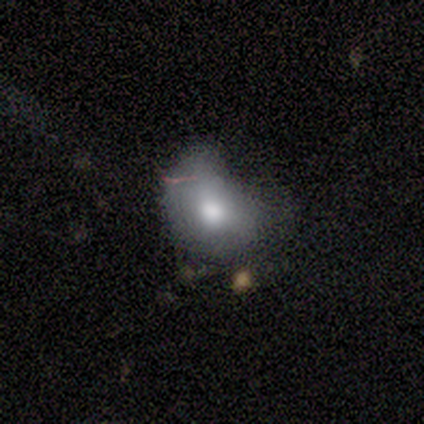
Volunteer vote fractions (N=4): Overall: smooth (100%). How rounded: in between (100%). Merging: minor disturbance (50%, tied with major disturbance).